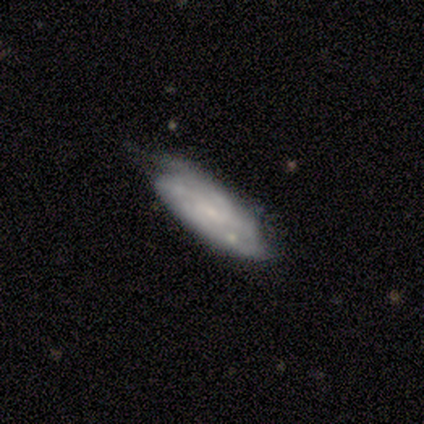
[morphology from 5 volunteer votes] smooth-or-featured: featured or disk: 60% | smooth: 40% | star or artifact: 0%
  disk-edge-on: no: 67% | yes: 33%
    bar: weak: 50% (tied) | no: 50% (tied) | strong: 0%
    has-spiral-arms: yes: 100% | no: 0%
      spiral-winding: tight: 50% (tied) | medium: 50% (tied) | loose: 0%
      spiral-arm-count: 2: 50% (tied) | can't tell: 50% (tied) | 1: 0% | 3: 0% | 4: 0% | more than 4: 0%
    bulge-size: none: 100% | dominant: 0% | large: 0% | moderate: 0% | small: 0%
  merging: none: 40% (tied) | major disturbance: 40% (tied) | minor disturbance: 20% | merger: 0%